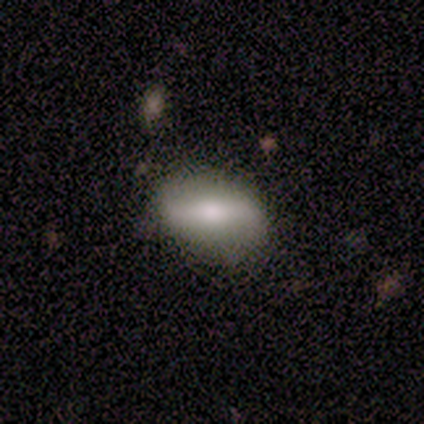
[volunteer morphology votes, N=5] smooth_or_featured: smooth (p=0.60) [alt: featured or disk p=0.40]
how_rounded: in between (p=0.67) [alt: round p=0.33]
merging: none (p=1.00)